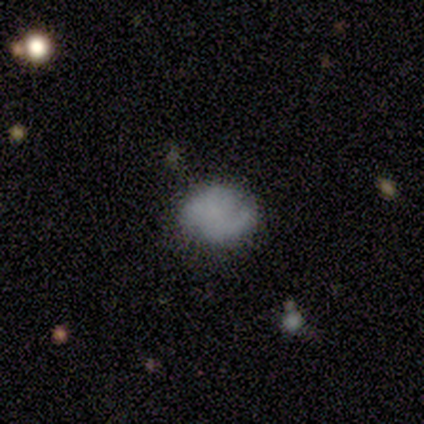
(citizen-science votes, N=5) Q: Smooth or featured?
A: smooth (40%); tied with: featured or disk (40%)
Q: How rounded?
A: round (50%); tied with: in between (50%)
Q: Merging?
A: none (75%); runner-up: minor disturbance (25%)